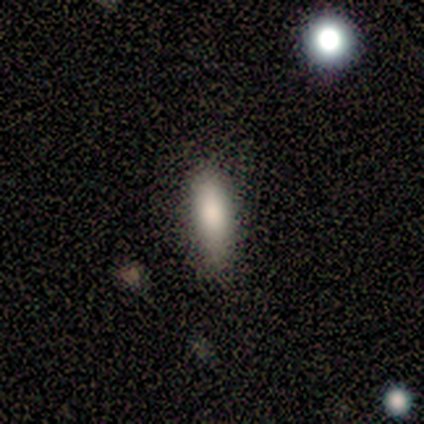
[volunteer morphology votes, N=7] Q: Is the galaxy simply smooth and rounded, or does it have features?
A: smooth — 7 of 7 (100%).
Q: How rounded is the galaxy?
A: in between — 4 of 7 (57%).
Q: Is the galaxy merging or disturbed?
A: none — 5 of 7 (71%).